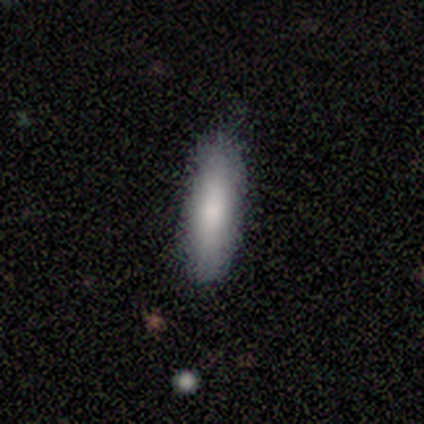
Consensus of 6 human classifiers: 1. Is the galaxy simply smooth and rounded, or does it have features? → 83% smooth, 17% star or artifact, 0% featured or disk.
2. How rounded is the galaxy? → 60% in between, 40% cigar-shaped, 0% round.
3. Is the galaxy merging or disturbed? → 100% none, 0% minor disturbance, 0% major disturbance, 0% merger.